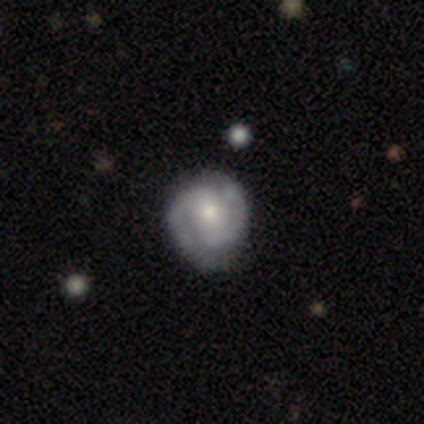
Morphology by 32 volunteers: smooth_or_featured: featured or disk (p=0.78) [alt: smooth p=0.12]
disk_edge_on: no (p=1.00)
bar: weak (p=0.60) [alt: no p=0.24]
has_spiral_arms: yes (p=1.00)
spiral_winding: tight (p=0.68) [alt: medium p=0.28]
spiral_arm_count: 2 (p=0.92) [alt: 1 p=0.04]
bulge_size: moderate (p=0.68) [alt: small p=0.16]
merging: none (p=0.76) [alt: minor disturbance p=0.17]